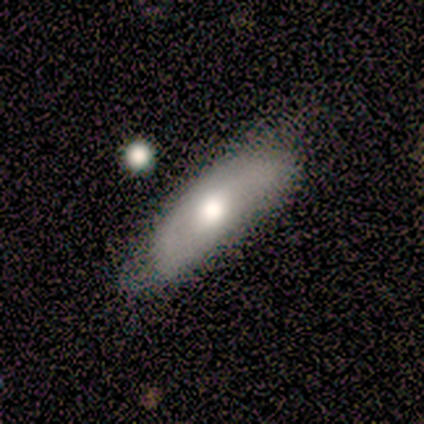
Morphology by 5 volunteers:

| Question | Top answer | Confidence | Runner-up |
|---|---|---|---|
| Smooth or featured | smooth | 60% | featured or disk (20%) |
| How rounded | in between | 67% | cigar-shaped (33%) |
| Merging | none | 50% | minor disturbance (25%) |